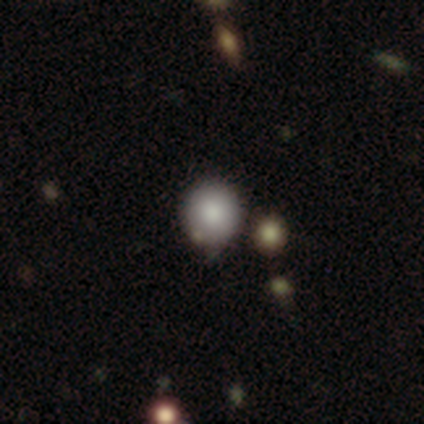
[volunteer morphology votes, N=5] Smooth or featured?
  - smooth: 80% *
  - star or artifact: 20%
  - featured or disk: 0%
How rounded?
  - round: 100% *
  - in between: 0%
  - cigar-shaped: 0%
Merging?
  - none: 75% *
  - minor disturbance: 25%
  - major disturbance: 0%
  - merger: 0%